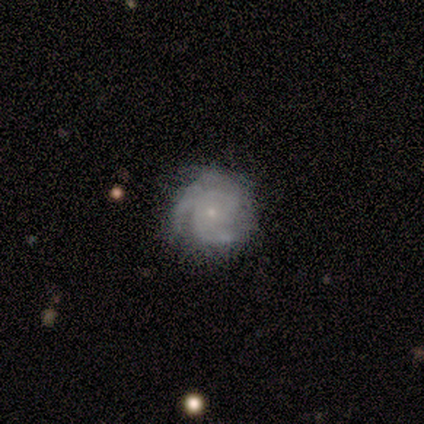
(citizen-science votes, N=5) smooth-or-featured: featured or disk: 100% | smooth: 0% | star or artifact: 0%
  disk-edge-on: no: 100% | yes: 0%
    bar: no: 100% | strong: 0% | weak: 0%
    has-spiral-arms: yes: 100% | no: 0%
      spiral-winding: medium: 80% | tight: 20% | loose: 0%
      spiral-arm-count: 2: 60% | 3: 20% | can't tell: 20% | 1: 0% | 4: 0% | more than 4: 0%
    bulge-size: small: 60% | moderate: 20% | none: 20% | dominant: 0% | large: 0%
  merging: none: 80% | minor disturbance: 20% | major disturbance: 0% | merger: 0%